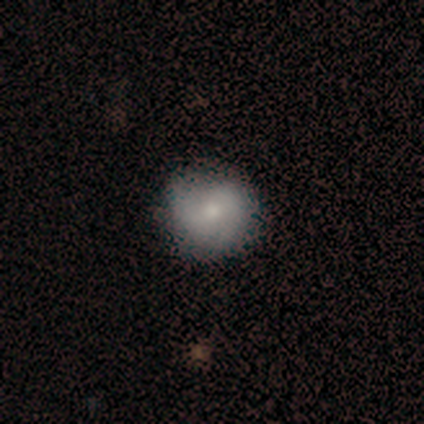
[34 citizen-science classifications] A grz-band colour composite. It shows a smooth galaxy with no disk features (56%) that is round (95%). Merging: none (90%).